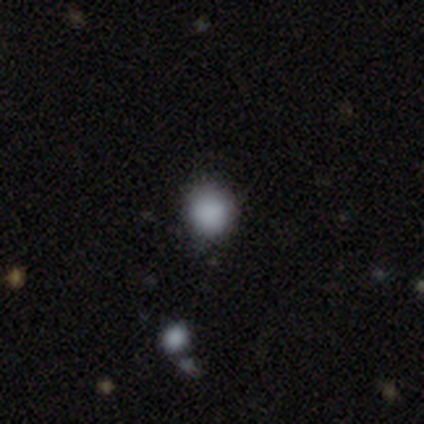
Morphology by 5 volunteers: This is clearly a smooth galaxy (80%). How rounded: possibly round (50%, tied with in between). Merging: clearly none (100%).